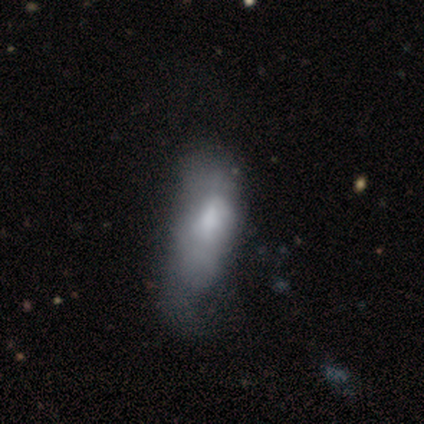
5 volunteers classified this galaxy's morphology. Smooth or featured: smooth — 60% (featured or disk — 20%)
How rounded: in between — 100%
Merging: none — 50% (tied with major disturbance — 50%)